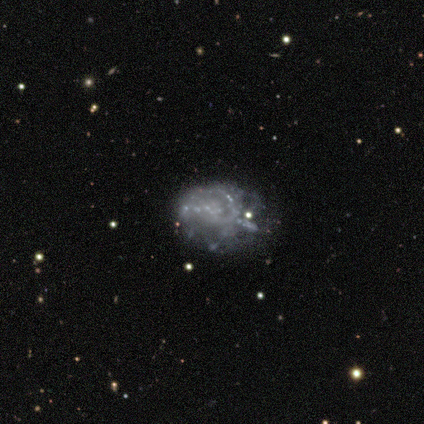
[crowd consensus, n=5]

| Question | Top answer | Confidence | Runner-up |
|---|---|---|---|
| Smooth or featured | featured or disk | 100% | — |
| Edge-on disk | no | 100% | — |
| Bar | no | 100% | — |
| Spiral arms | no | 80% | yes (20%) |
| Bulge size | none | 100% | — |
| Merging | none | 80% | major disturbance (20%) |